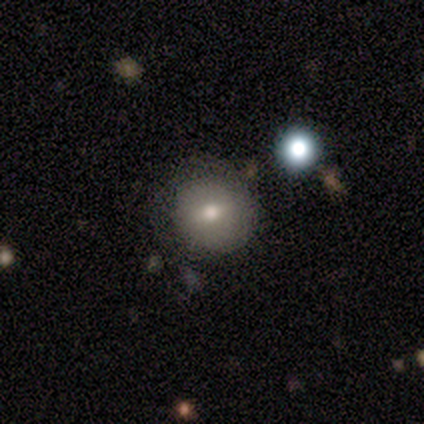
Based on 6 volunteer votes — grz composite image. It shows a smooth galaxy with no disk features (67%) that is round (75%). Merging: none (100%).